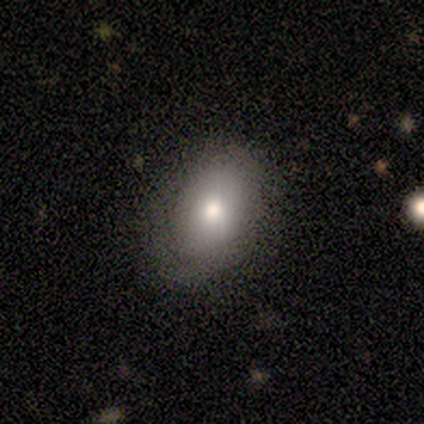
A smooth galaxy with no disk features (50%, tied with star or artifact) that is in between round and cigar-shaped (100%).

Vote fractions:
- Smooth or featured? smooth: 50% (tied) / star or artifact: 50% (tied) / featured or disk: 0%
- How rounded? in between: 100% / round: 0% / cigar-shaped: 0%
- Merging? none: 100% / minor disturbance: 0% / major disturbance: 0% / merger: 0%